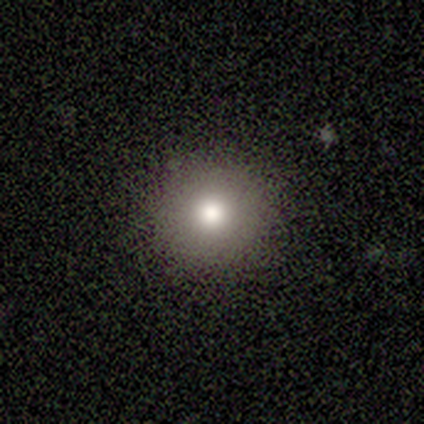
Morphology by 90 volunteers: Smooth or featured: smooth — 81% (featured or disk — 11%)
How rounded: round — 100%
Merging: none — 92% (minor disturbance — 7%)